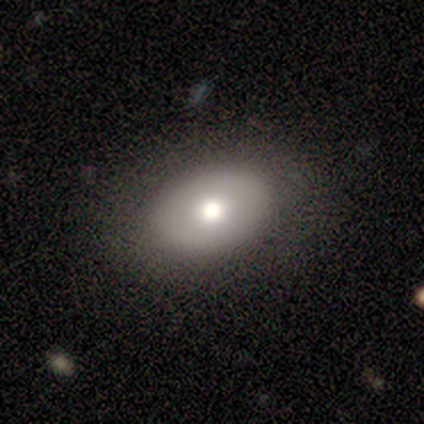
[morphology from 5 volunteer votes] smooth 60%, featured or disk 40%, star or artifact 0%. Down the decision tree: how rounded — in between (100%); merging — none (80%).